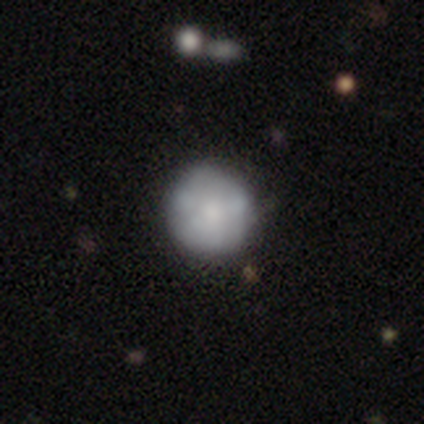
Overall: featured or disk (59%; smooth 41%). Edge-on disk: no (100%). Bar: no (91%). Spiral arms: no (87%). Bulge size: moderate (43%; small 35%). Merging: none (56%).